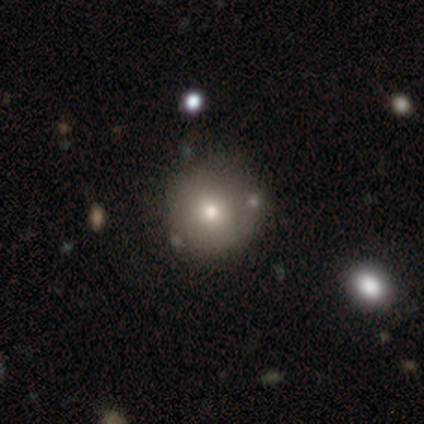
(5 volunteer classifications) This is clearly a smooth galaxy (80%). How rounded: clearly round (100%). Merging: clearly none (100%).